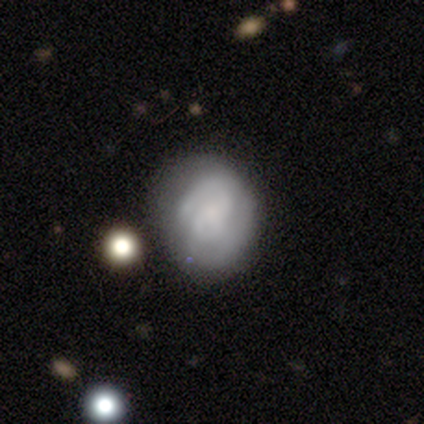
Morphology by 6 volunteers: Overall: smooth (50%, tied with featured or disk). How rounded: round (100%). Merging: none (83%).